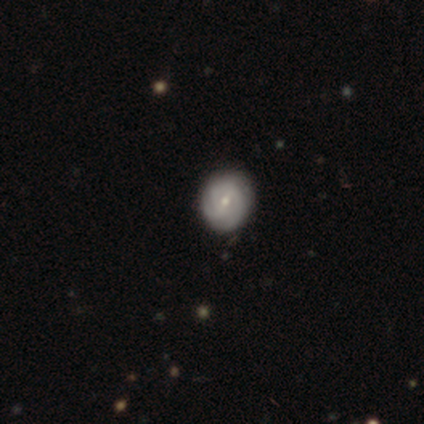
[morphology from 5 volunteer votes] This appears to be a smooth galaxy with no disk features (60%) that is round (67%). Merging: none (80%).